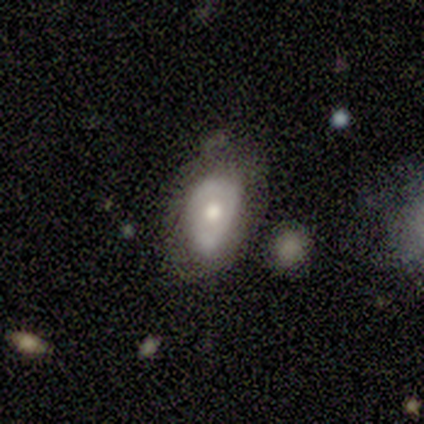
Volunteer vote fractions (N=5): A smooth galaxy with no disk features (60%) that is in between round and cigar-shaped (100%).

Vote fractions:
- Smooth or featured? smooth: 60% / featured or disk: 40% / star or artifact: 0%
- How rounded? in between: 100% / round: 0% / cigar-shaped: 0%
- Merging? major disturbance: 60% / minor disturbance: 40% / none: 0% / merger: 0%